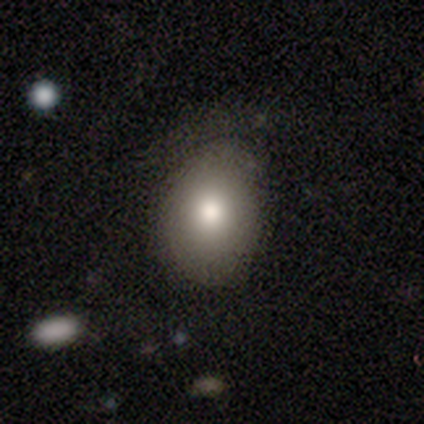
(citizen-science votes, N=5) Morphology: type=smooth (100%); roundness=in between (60%); merging=none (100%).